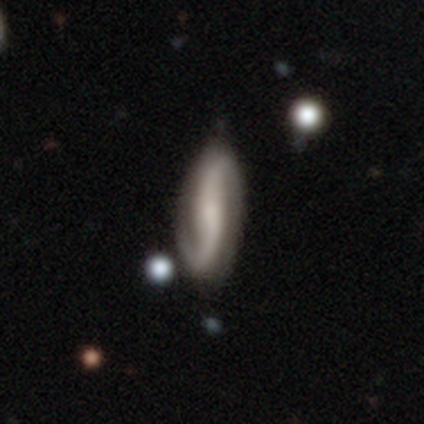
Smooth or featured?
  - featured or disk: 80% *
  - star or artifact: 20%
  - smooth: 0%
Edge-on disk?
  - no: 75% *
  - yes: 25%
Bar?
  - weak: 67% *
  - strong: 33%
  - no: 0%
Spiral arms?
  - yes: 100% *
  - no: 0%
Spiral winding?
  - loose: 67% *
  - medium: 33%
  - tight: 0%
Spiral arm count?
  - 2: 67% *
  - 1: 33%
  - 3: 0%
  - 4: 0%
  - more than 4: 0%
  - can't tell: 0%
Bulge size?
  - none: 67% *
  - large: 33%
  - dominant: 0%
  - moderate: 0%
  - small: 0%
Merging?
  - none: 100% *
  - minor disturbance: 0%
  - major disturbance: 0%
  - merger: 0%